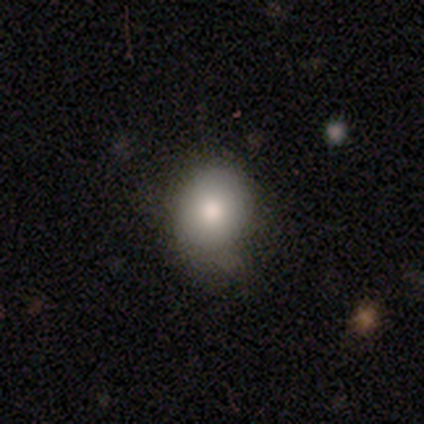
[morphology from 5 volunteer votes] smooth 60%, featured or disk 40%, star or artifact 0%. Down the decision tree: how rounded — round (100%); merging — none (60%).